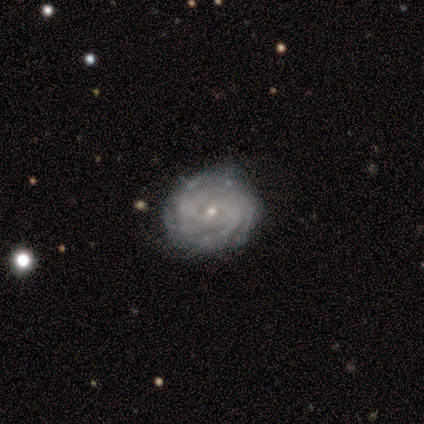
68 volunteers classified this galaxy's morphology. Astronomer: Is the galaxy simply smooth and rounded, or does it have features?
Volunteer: featured or disk — 85%.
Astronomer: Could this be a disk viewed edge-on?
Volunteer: no — 98%.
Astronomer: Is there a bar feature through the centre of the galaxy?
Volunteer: no — 67%.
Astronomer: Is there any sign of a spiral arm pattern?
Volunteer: yes — 98%.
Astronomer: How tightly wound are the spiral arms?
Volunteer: tight — 80%.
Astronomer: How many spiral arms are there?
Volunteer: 4 — 50% (runner-up: more than 4, 27%).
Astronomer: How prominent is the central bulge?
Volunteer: small — 84%.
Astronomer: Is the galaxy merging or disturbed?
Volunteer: none — 70%.